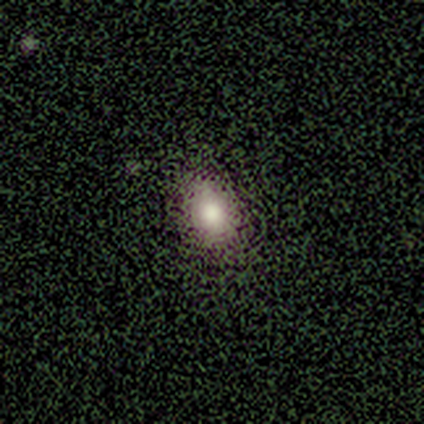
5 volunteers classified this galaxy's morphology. smooth-or-featured: smooth: 60% | featured or disk: 20% | star or artifact: 20%
  how-rounded: in between: 100% | round: 0% | cigar-shaped: 0%
  merging: none: 75% | minor disturbance: 25% | major disturbance: 0% | merger: 0%